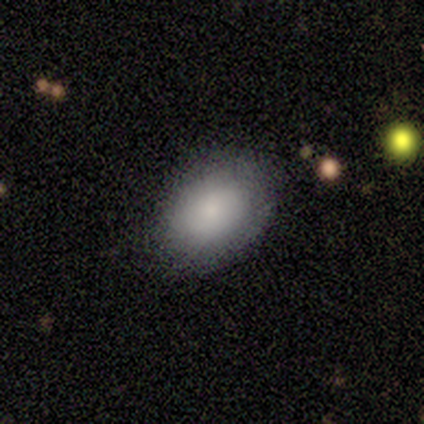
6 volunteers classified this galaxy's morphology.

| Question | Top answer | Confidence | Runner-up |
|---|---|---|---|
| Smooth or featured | smooth | 83% | star or artifact (17%) |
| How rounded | in between | 60% | round (40%) |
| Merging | none | 80% | minor disturbance (20%) |